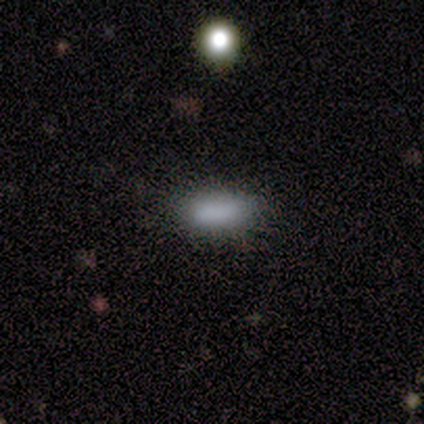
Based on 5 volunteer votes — Smooth or featured? 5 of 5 (100%) said smooth. How rounded? 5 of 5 (100%) said in between. Merging? 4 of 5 (80%) said none.